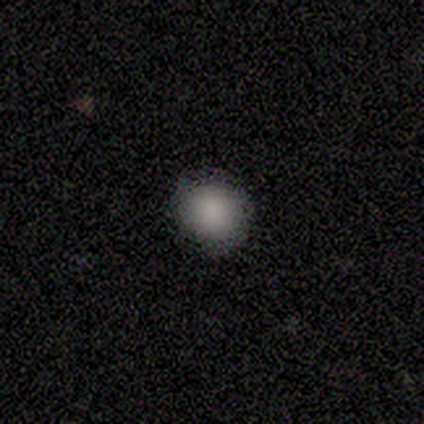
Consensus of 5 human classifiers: Smooth or featured? 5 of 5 (100%) said smooth. How rounded? 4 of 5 (80%) said round. Merging? 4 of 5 (80%) said none.